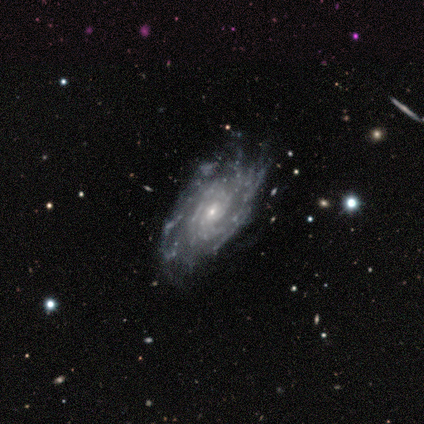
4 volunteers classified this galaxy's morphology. A featured or disk galaxy (100%) with no bar (100%), tight (75%) spiral arms (100%) and a small central bulge (75%).

Vote fractions:
- Smooth or featured? featured or disk: 100% / smooth: 0% / star or artifact: 0%
- Edge-on disk? no: 100% / yes: 0%
- Bar? no: 100% / strong: 0% / weak: 0%
- Spiral arms? yes: 100% / no: 0%
- Spiral winding? tight: 75% / medium: 25% / loose: 0%
- Spiral arm count? can't tell: 75% / 1: 25% / 2: 0% / 3: 0% / 4: 0% / more than 4: 0%
- Bulge size? small: 75% / moderate: 25% / dominant: 0% / large: 0% / none: 0%
- Merging? none: 100% / minor disturbance: 0% / major disturbance: 0% / merger: 0%